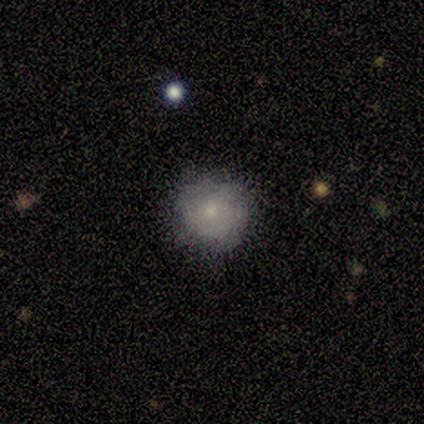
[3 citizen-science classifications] Smooth or featured? smooth (67%)
How rounded? round (100%)
Merging? none (100%)